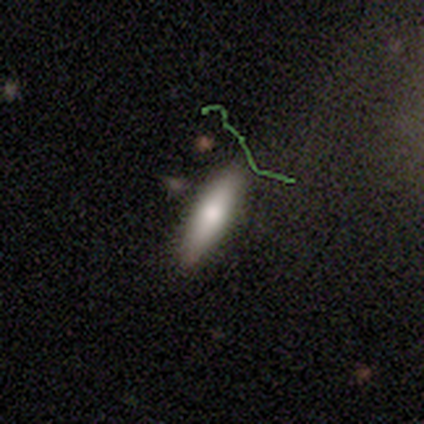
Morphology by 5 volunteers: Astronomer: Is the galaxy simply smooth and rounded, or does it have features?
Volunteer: smooth — 80%.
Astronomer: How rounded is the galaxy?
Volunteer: cigar-shaped — 100%.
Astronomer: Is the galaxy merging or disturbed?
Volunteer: none — 80%.